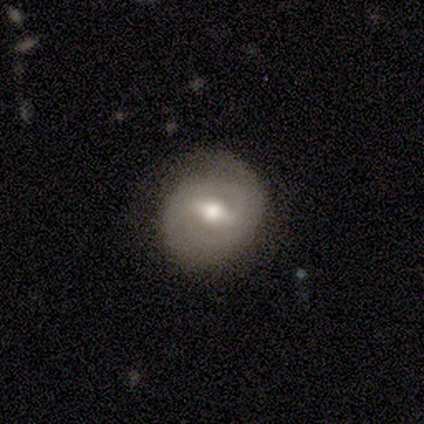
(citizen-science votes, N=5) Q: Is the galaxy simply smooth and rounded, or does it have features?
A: featured or disk — 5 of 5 (100%).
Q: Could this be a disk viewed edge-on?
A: no — 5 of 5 (100%).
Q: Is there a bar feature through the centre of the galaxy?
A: weak — 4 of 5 (80%).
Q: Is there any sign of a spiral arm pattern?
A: yes — 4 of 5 (80%).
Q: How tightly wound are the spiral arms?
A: tight — 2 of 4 (50%).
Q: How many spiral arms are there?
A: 2 — 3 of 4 (75%).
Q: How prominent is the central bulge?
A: moderate — 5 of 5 (100%).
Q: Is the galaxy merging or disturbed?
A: none — 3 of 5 (60%).